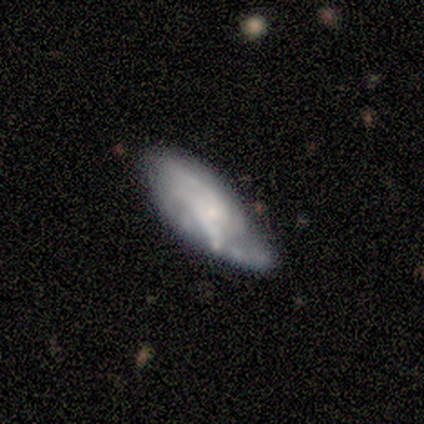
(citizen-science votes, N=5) Morphology: type=featured or disk (80%); edge-on=no (75%); bar=weak (67%); spiral arms=yes (100%); winding=tight (33%, tied with medium and loose); arm count=2 (67%); bulge=moderate (67%); merging=none (40%, tied with minor disturbance).